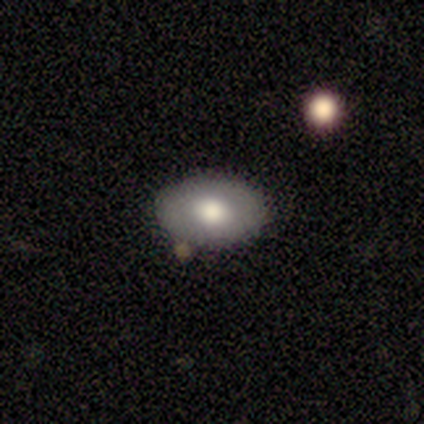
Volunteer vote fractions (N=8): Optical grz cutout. It shows a smooth galaxy with no disk features (75%) that is in between round and cigar-shaped (83%). Merging: none (88%).